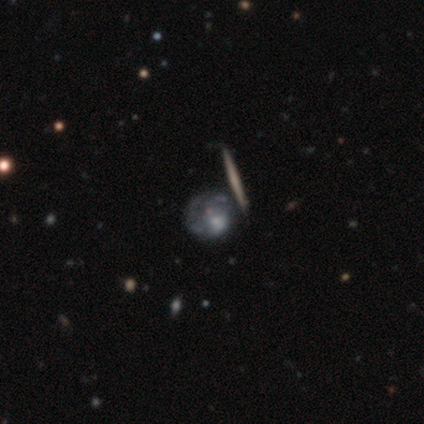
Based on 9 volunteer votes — This is marginally a featured or disk galaxy (44%). It is clearly not viewed edge-on (100%). Bar: likely no (75%). Spiral arm pattern: clearly no (100%). Central bulge: possibly none (50%). Merging: possibly none (57%).